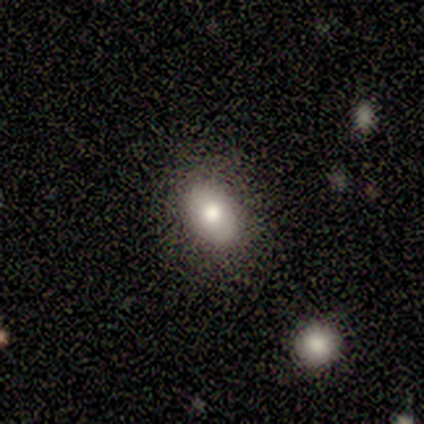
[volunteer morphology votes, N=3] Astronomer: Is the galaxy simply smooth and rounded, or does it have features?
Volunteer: smooth — 67%.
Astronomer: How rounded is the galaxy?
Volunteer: in between — 100%.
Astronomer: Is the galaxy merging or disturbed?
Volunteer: none — 100%.